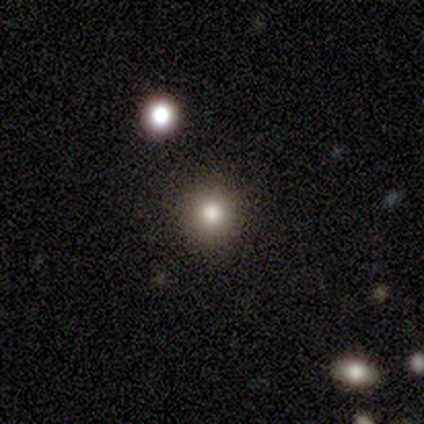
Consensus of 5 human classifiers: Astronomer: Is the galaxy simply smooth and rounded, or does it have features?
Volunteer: smooth — 100%.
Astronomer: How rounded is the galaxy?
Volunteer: round — 100%.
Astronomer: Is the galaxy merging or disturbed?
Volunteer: none — 100%.